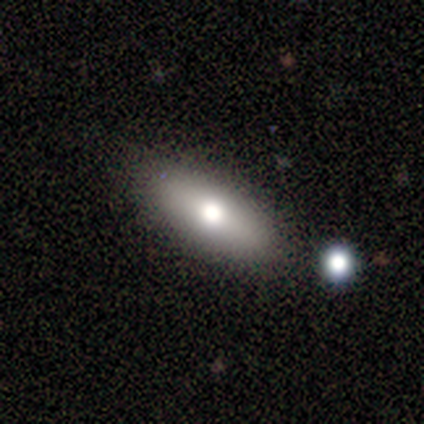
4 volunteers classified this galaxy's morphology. Overall: smooth (75%). How rounded: in between (100%). Merging: none (75%).